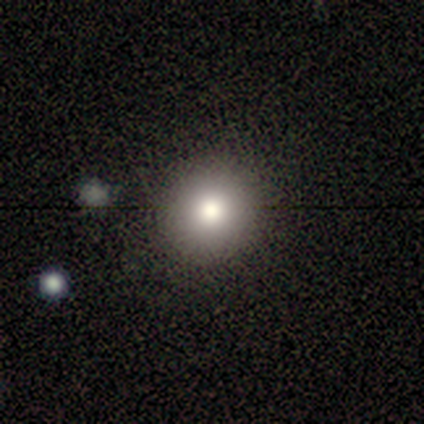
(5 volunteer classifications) Smooth or featured? 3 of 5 (60%) said smooth. How rounded? 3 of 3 (100%) said round. Merging? 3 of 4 (75%) said none.